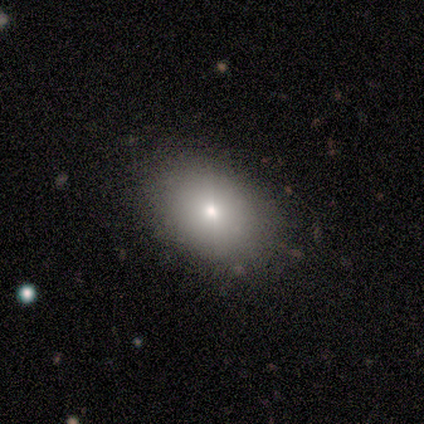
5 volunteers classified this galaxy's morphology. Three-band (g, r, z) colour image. It shows a smooth galaxy with no disk features (80%) that is round (50%, tied with in between). Merging: none (75%).